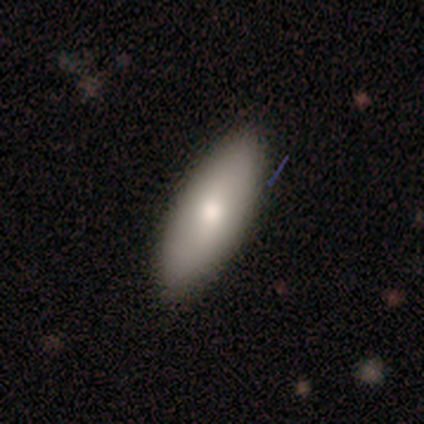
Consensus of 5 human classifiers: Smooth or featured? smooth (80%)
How rounded? in between (100%)
Merging? none (100%)